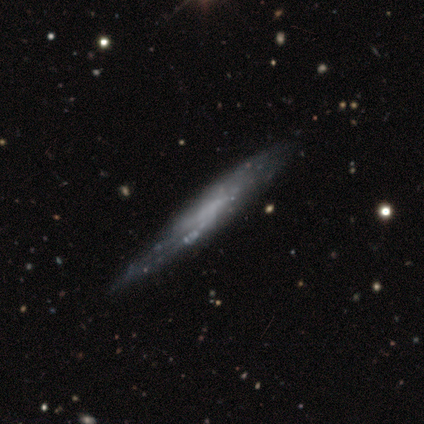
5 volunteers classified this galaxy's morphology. type=featured or disk (60%); edge-on=yes (67%); edge-on bulge=none (100%); merging=none (60%).